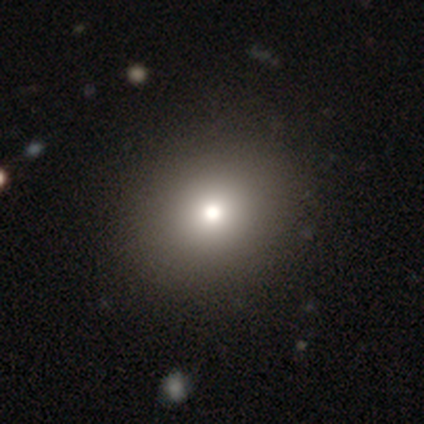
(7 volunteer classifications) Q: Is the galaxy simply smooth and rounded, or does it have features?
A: smooth — 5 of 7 (71%).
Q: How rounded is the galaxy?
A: round — 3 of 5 (60%).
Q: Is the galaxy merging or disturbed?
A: none — 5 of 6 (83%).